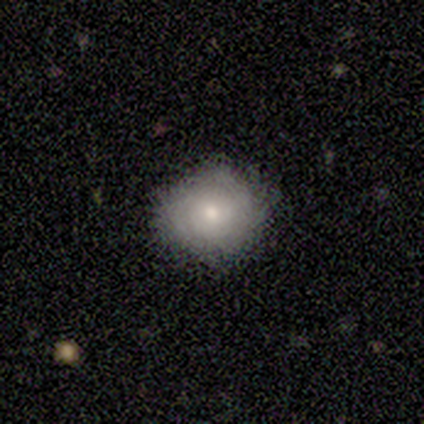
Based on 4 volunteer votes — Smooth or featured?
  - star or artifact: 50% *
  - smooth: 25%
  - featured or disk: 25%